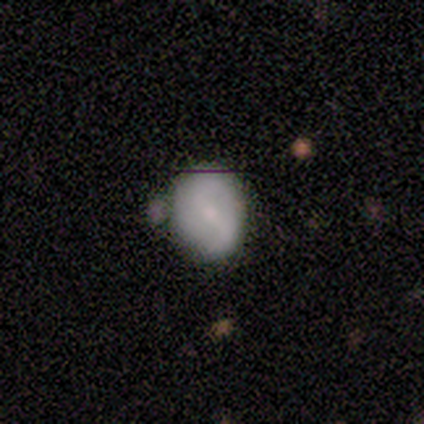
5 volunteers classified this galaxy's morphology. smooth 40% (tied), featured or disk 40% (tied), star or artifact 20%. Down the decision tree: how rounded — round (100%); merging — none (75%).